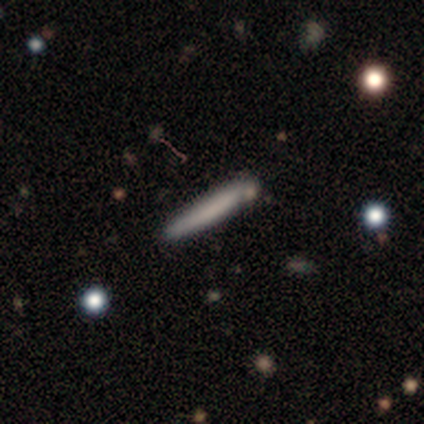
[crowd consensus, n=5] smooth 60%, featured or disk 20%, star or artifact 20%. Down the decision tree: how rounded — cigar-shaped (100%); merging — none (75%).